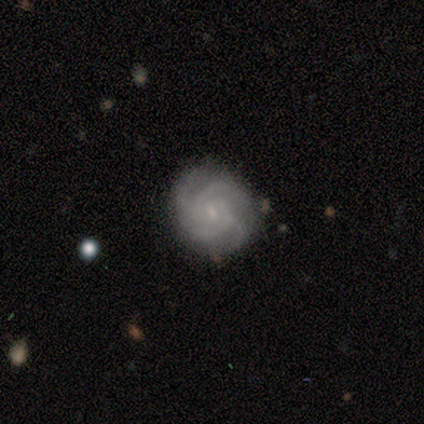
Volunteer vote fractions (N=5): Overall: featured or disk (80%). Edge-on disk: no (100%). Bar: weak (50%, tied with no). Spiral arms: yes (100%). Spiral arm count: 4 (50%; 2 25%). Spiral winding: tight (75%). Bulge size: small (75%). Merging: none (100%).